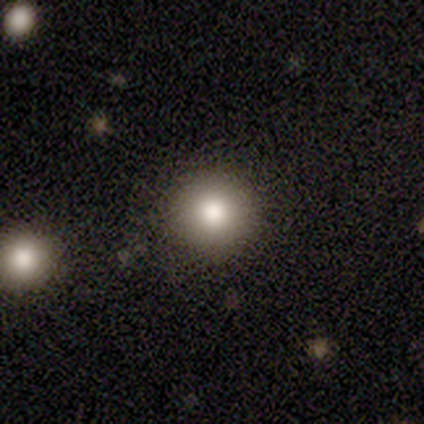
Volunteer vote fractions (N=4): smooth_or_featured: smooth (p=1.00)
how_rounded: round (p=1.00)
merging: none (p=1.00)